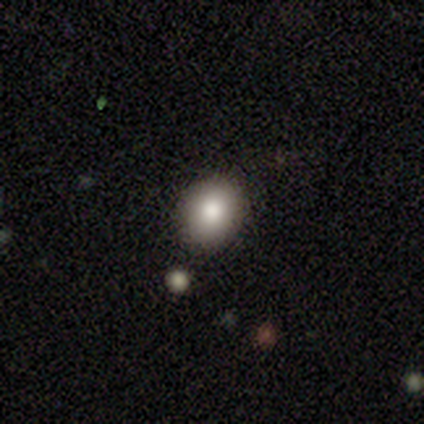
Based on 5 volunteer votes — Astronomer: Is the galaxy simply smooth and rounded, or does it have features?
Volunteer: smooth — 100%.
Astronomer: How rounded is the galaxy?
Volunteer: round — 60% (runner-up: in between, 40%).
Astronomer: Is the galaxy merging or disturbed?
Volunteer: none — 100%.